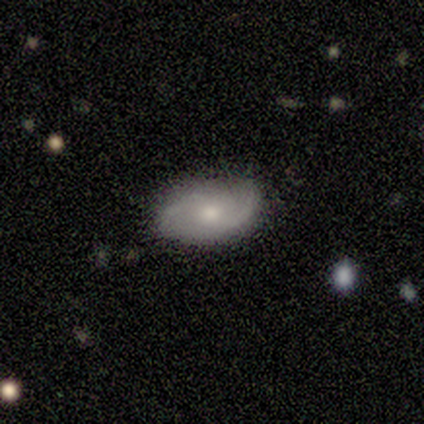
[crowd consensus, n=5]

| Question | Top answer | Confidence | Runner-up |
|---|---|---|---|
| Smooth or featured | featured or disk | 60% | smooth (40%) |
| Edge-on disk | no | 100% | — |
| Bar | no | 67% | weak (33%) |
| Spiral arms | yes | 100% | — |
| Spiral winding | loose | 67% | tight (33%) |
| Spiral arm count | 2 | 67% | 1 (33%) |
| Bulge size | moderate | 100% | — |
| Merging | minor disturbance | 60% | none (40%) |